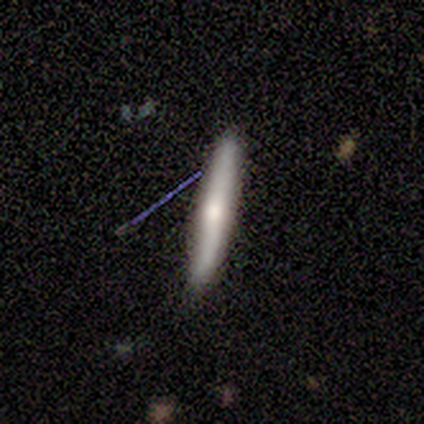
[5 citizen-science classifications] Smooth or featured: smooth — 60% (featured or disk — 20%)
How rounded: cigar-shaped — 100%
Merging: none — 100%